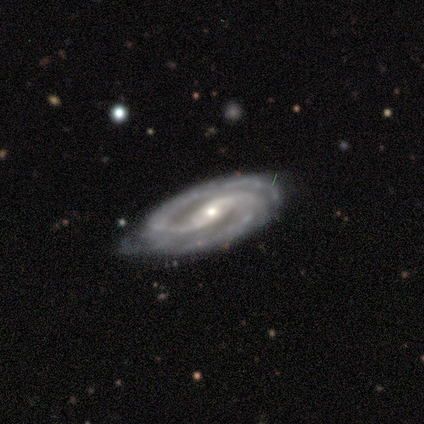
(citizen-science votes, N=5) This appears to be a featured or disk galaxy (100%) with a strong bar (40%, tied with no), 2 (80%) tight (80%) spiral arms (100%) and a moderate central bulge (60%). Merging: none (60%).